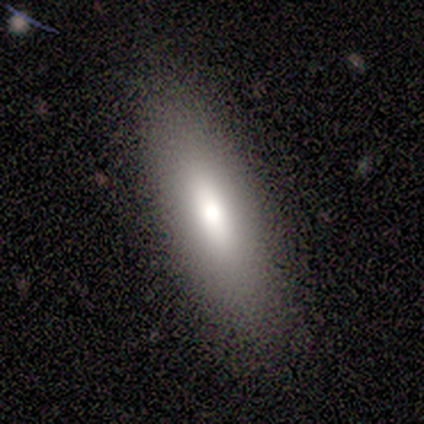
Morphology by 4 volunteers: A smooth galaxy with no disk features (100%) that is in between round and cigar-shaped (100%).

Vote fractions:
- Smooth or featured? smooth: 100% / featured or disk: 0% / star or artifact: 0%
- How rounded? in between: 100% / round: 0% / cigar-shaped: 0%
- Merging? none: 75% / minor disturbance: 25% / major disturbance: 0% / merger: 0%